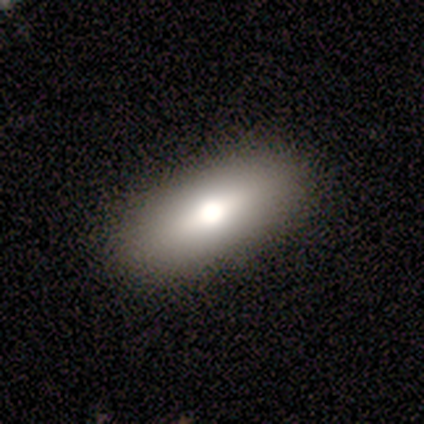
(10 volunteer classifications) Smooth or featured? smooth (90%)
How rounded? in between (78%)
Merging? none (100%)